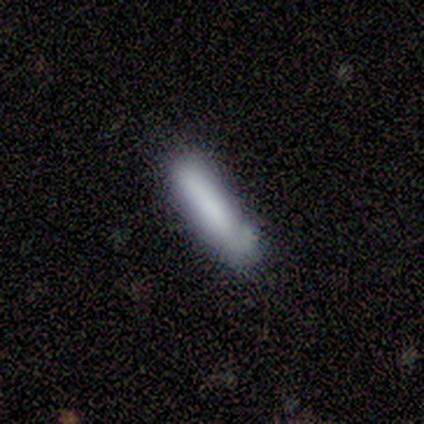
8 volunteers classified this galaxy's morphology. type=smooth (88%); roundness=cigar-shaped (71%); merging=none (75%).